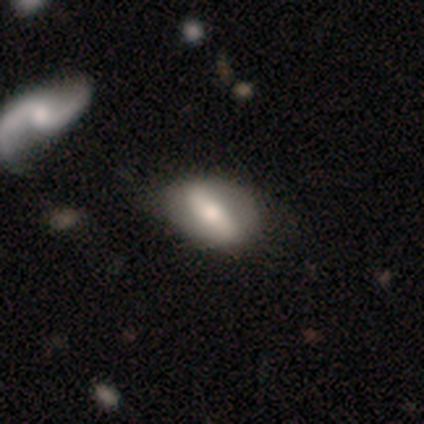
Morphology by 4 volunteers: A smooth galaxy with no disk features (50%) that is round (50%, tied with in between).

Vote fractions:
- Smooth or featured? smooth: 50% / featured or disk: 25% / star or artifact: 25%
- How rounded? round: 50% (tied) / in between: 50% (tied) / cigar-shaped: 0%
- Merging? none: 100% / minor disturbance: 0% / major disturbance: 0% / merger: 0%